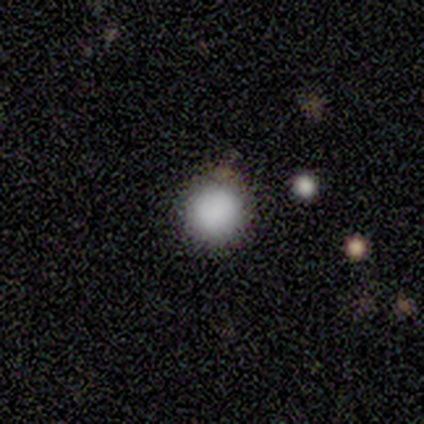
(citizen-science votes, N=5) smooth-or-featured: smooth: 100% | featured or disk: 0% | star or artifact: 0%
  how-rounded: round: 100% | in between: 0% | cigar-shaped: 0%
  merging: none: 100% | minor disturbance: 0% | major disturbance: 0% | merger: 0%